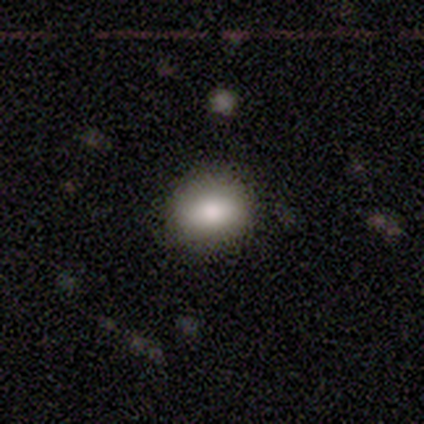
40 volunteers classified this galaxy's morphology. Smooth or featured: smooth — 78% (star or artifact — 15%)
How rounded: round — 52% (in between — 45%)
Merging: none — 91% (minor disturbance — 6%)